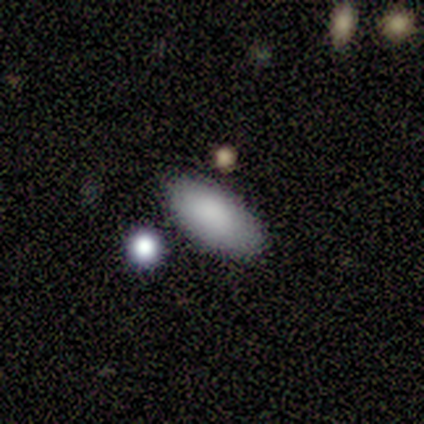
Smooth or featured?
  - smooth: 80% *
  - featured or disk: 20%
  - star or artifact: 0%
How rounded?
  - in between: 75% *
  - cigar-shaped: 25%
  - round: 0%
Merging?
  - none: 40% * (tied)
  - minor disturbance: 40% * (tied)
  - major disturbance: 10%
  - merger: 10%